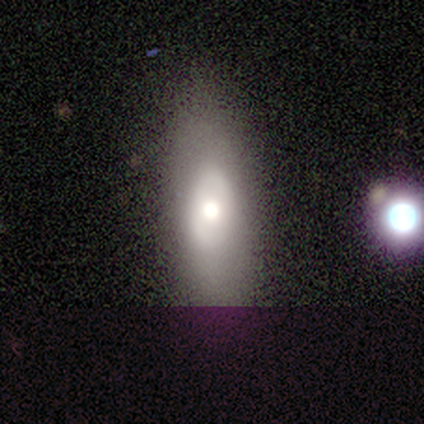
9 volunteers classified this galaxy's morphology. Smooth or featured?
  - featured or disk: 78% *
  - smooth: 22%
  - star or artifact: 0%
Edge-on disk?
  - no: 57% *
  - yes: 43%
Bar?
  - no: 100% *
  - strong: 0%
  - weak: 0%
Spiral arms?
  - no: 75% *
  - yes: 25%
Bulge size?
  - moderate: 75% *
  - large: 25%
  - dominant: 0%
  - small: 0%
  - none: 0%
Merging?
  - none: 100% *
  - minor disturbance: 0%
  - major disturbance: 0%
  - merger: 0%